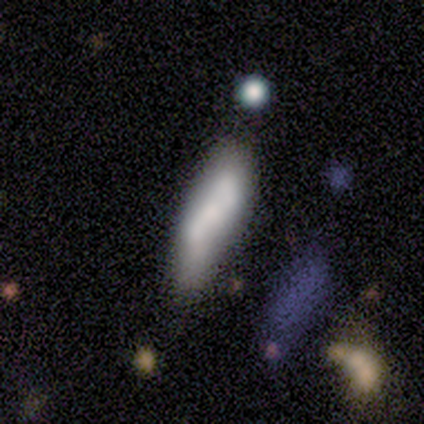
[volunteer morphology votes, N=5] Smooth or featured? 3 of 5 (60%) said smooth. How rounded? 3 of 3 (100%) said cigar-shaped. Merging? 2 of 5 (40%, tied with major disturbance) said minor disturbance.